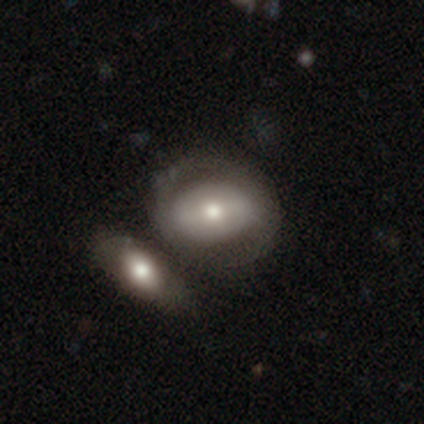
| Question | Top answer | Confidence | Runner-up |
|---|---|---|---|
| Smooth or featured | featured or disk | 70% | smooth (30%) |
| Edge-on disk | no | 100% | — |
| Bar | no | 39% | strong (35%) |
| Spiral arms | yes | 52% | no (48%) |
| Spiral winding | medium | 42% | tied: loose (42%) |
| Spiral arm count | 2 | 83% | 1 (8%) |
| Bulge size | moderate | 61% | small (22%) |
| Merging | merger | 58% | — |